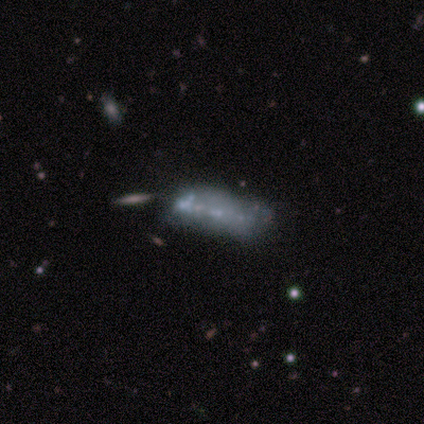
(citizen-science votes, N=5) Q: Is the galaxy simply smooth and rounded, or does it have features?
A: featured or disk — 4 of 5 (80%).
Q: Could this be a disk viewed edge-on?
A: no — 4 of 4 (100%).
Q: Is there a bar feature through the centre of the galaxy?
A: no — 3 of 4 (75%).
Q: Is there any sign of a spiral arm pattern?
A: no — 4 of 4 (100%).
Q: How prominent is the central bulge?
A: none — 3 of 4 (75%).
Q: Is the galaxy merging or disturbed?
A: none — 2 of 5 (40%, tied with major disturbance).